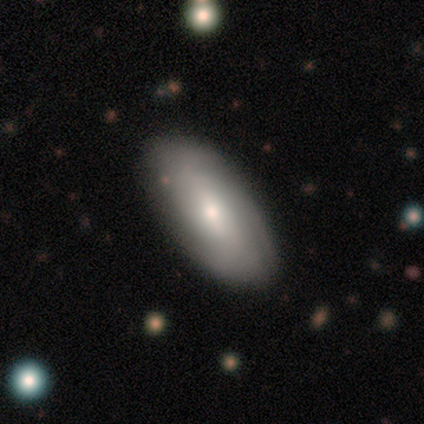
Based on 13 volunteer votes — Smooth or featured: smooth — 54% (featured or disk — 46%)
How rounded: in between — 86% (cigar-shaped — 14%)
Merging: none — 92% (minor disturbance — 8%)